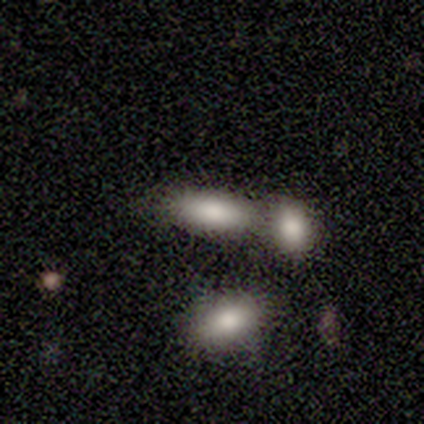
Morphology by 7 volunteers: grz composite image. It shows a smooth galaxy with no disk features (86%) that is in between round and cigar-shaped (100%). Merging: merger (71%).